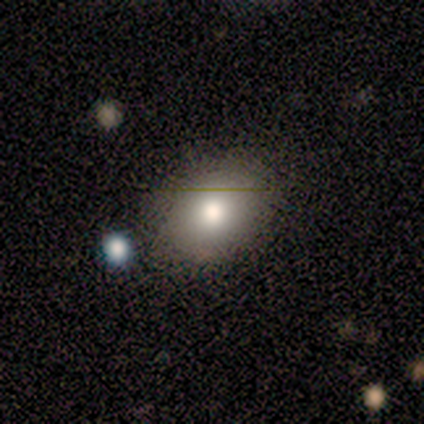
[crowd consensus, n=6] Q: Smooth or featured?
A: smooth (83%); runner-up: star or artifact (17%)
Q: How rounded?
A: in between (100%)
Q: Merging?
A: none (100%)